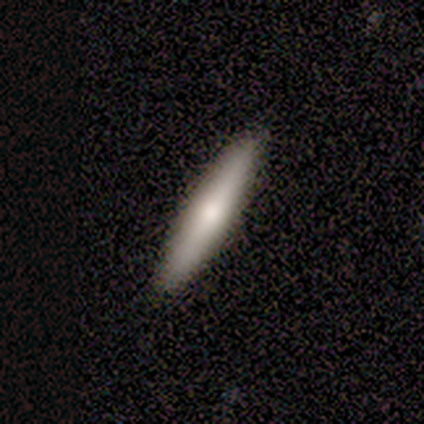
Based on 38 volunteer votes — Q: Smooth or featured?
A: smooth (71%); runner-up: featured or disk (26%)
Q: How rounded?
A: cigar-shaped (89%); runner-up: in between (11%)
Q: Merging?
A: none (89%); runner-up: minor disturbance (8%)